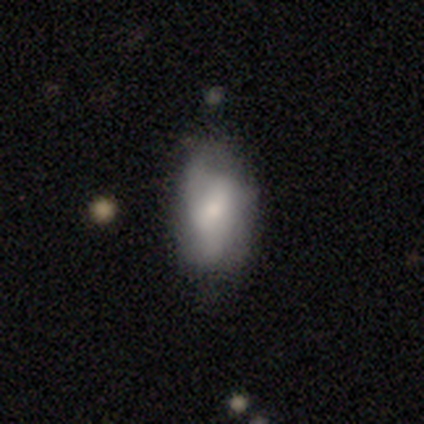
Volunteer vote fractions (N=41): Smooth or featured? 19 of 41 (46%, tied with featured or disk) said smooth. How rounded? 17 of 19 (89%) said in between. Merging? 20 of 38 (53%) said none.